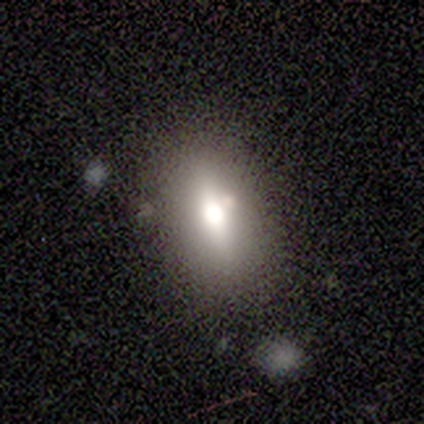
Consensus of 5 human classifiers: This appears to be a smooth galaxy with no disk features (60%) that is in between round and cigar-shaped (100%). Merging: none (67%).